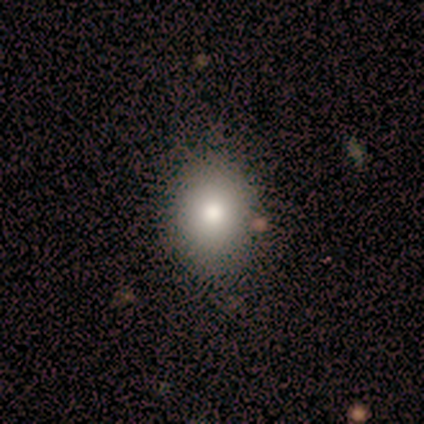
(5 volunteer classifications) Smooth or featured?
  - smooth: 80% *
  - featured or disk: 20%
  - star or artifact: 0%
How rounded?
  - round: 75% *
  - in between: 25%
  - cigar-shaped: 0%
Merging?
  - none: 60% *
  - minor disturbance: 40%
  - major disturbance: 0%
  - merger: 0%